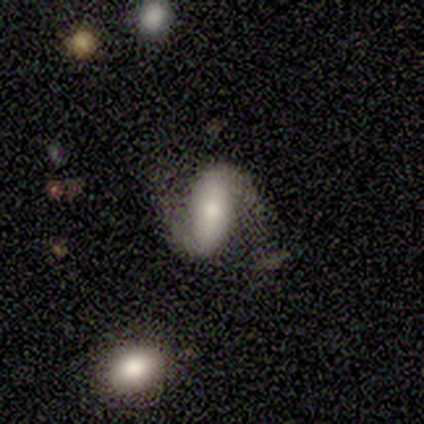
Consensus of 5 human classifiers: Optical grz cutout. It shows a featured or disk galaxy (100%) with a strong bar (60%), 2 (100%) loose (60%) spiral arms (100%) and a moderate central bulge (80%). Merging: none (100%).